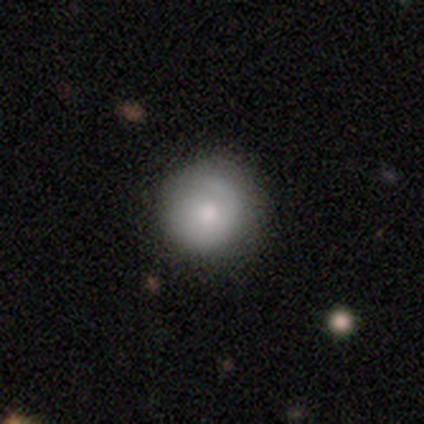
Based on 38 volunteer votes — Morphology: type=smooth (74%); roundness=round (96%); merging=none (73%).